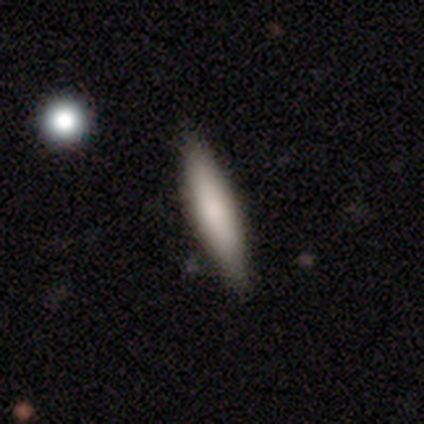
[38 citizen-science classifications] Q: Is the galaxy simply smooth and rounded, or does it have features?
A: smooth — 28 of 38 (74%).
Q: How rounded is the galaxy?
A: cigar-shaped — 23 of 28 (82%).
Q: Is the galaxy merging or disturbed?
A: none — 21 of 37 (57%).